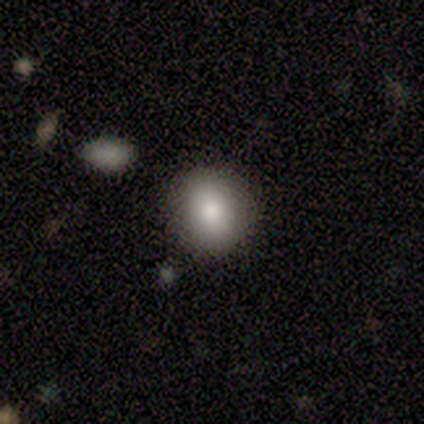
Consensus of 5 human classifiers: A smooth galaxy with no disk features (60%) that is round (100%).

Vote fractions:
- Smooth or featured? smooth: 60% / star or artifact: 40% / featured or disk: 0%
- How rounded? round: 100% / in between: 0% / cigar-shaped: 0%
- Merging? none: 100% / minor disturbance: 0% / major disturbance: 0% / merger: 0%